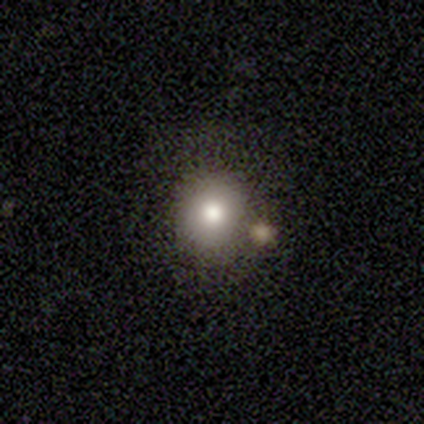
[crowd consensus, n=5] Morphology: type=smooth (100%); roundness=round (100%); merging=none (60%).